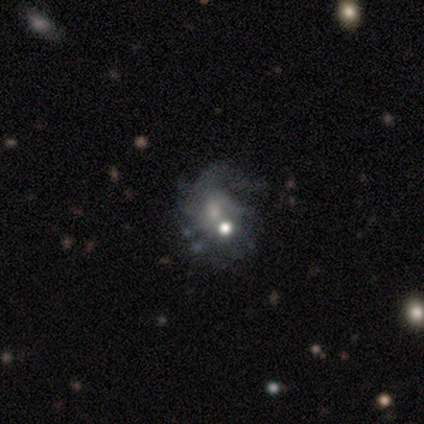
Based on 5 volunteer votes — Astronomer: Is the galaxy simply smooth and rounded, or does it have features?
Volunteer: featured or disk — 80%.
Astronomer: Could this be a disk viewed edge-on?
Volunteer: no — 100%.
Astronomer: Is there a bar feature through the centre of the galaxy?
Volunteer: no — 75%.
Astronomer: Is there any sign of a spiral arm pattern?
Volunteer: yes — 100%.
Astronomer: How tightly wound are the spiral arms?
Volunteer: loose — 50%.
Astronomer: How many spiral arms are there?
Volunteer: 1 — 50%, tied with can't tell at 50%.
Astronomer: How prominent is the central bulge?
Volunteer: moderate — 50%, tied with small at 50%.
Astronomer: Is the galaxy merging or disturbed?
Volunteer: minor disturbance — 80%.